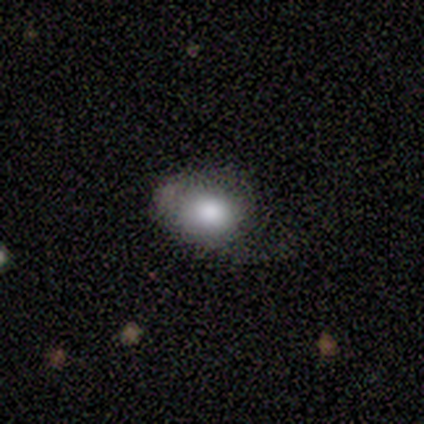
Morphology: type=smooth (60%); roundness=round (67%); merging=minor disturbance (50%).